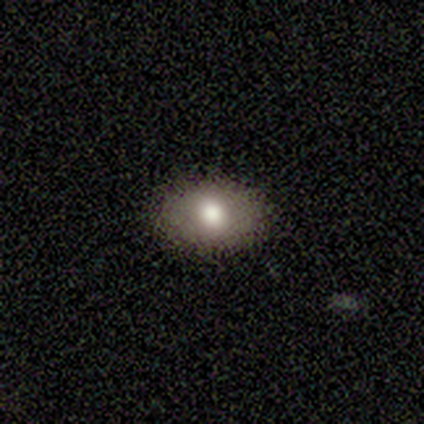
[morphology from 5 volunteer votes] A smooth galaxy with no disk features (80%) that is in between round and cigar-shaped (100%). Merging: none (80%).